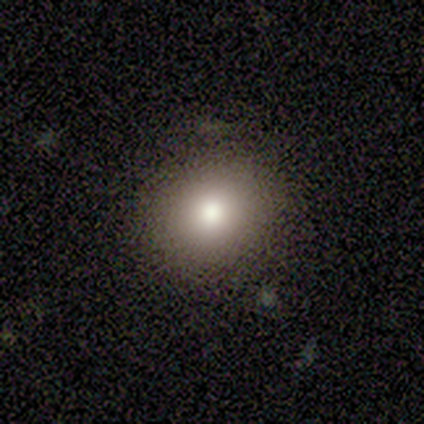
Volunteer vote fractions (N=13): A smooth galaxy with no disk features (77%) that is round (90%). Merging: none (91%).